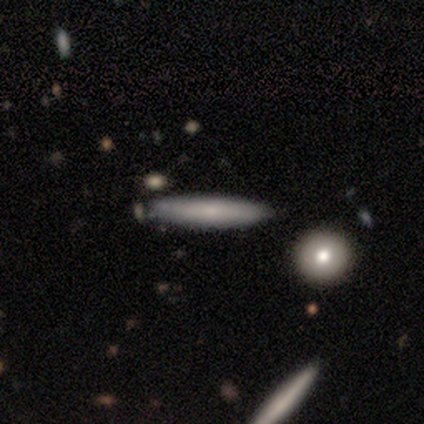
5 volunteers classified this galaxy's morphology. Q: Smooth or featured?
A: smooth (100%)
Q: How rounded?
A: cigar-shaped (100%)
Q: Merging?
A: minor disturbance (60%); runner-up: none (40%)